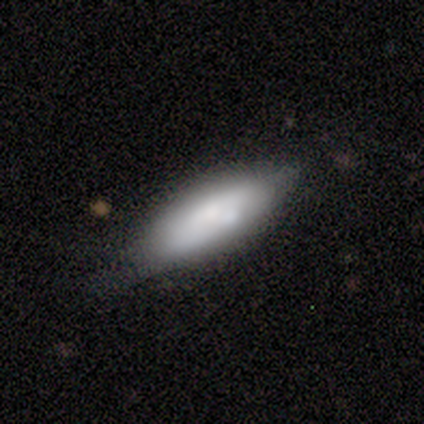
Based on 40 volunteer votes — smooth_or_featured: smooth (p=0.65) [alt: featured or disk p=0.33]
how_rounded: in between (p=0.58) [alt: cigar-shaped p=0.38]
merging: none (p=0.54) [alt: minor disturbance p=0.31]